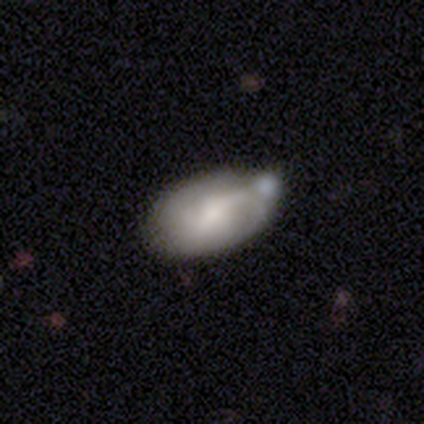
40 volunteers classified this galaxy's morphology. A smooth galaxy with no disk features (50%, tied with featured or disk) that is in between round and cigar-shaped (85%).

Vote fractions:
- Smooth or featured? smooth: 50% (tied) / featured or disk: 50% (tied) / star or artifact: 0%
- How rounded? in between: 85% / cigar-shaped: 10% / round: 5%
- Merging? none: 45% / minor disturbance: 28% / merger: 22% / major disturbance: 5%